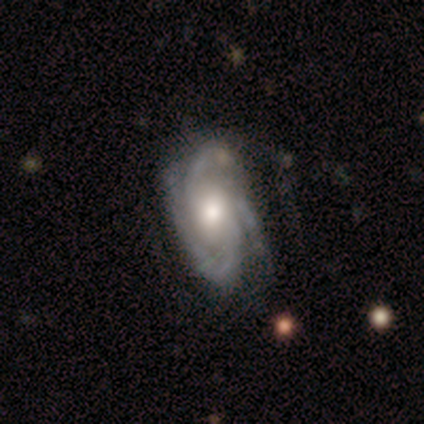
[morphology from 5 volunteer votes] smooth_or_featured: featured or disk (p=0.80) [alt: smooth p=0.20]
disk_edge_on: no (p=1.00)
bar: no (p=1.00)
has_spiral_arms: yes (p=1.00)
spiral_winding: tight (p=0.50) [tied with: medium p=0.50]
spiral_arm_count: 3 (p=0.75) [alt: 2 p=0.25]
bulge_size: moderate (p=0.75) [alt: large p=0.25]
merging: none (p=1.00)